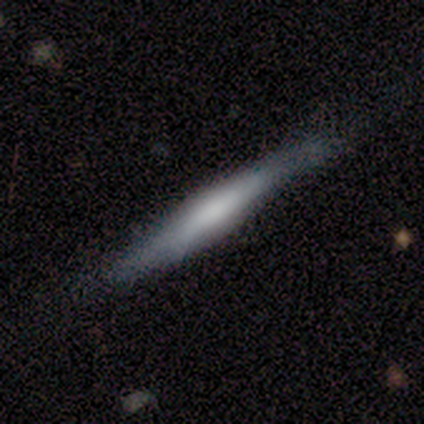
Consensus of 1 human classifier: Consensus on every question: smooth or featured — smooth (100%); how rounded — cigar-shaped (100%); merging — minor disturbance (100%).